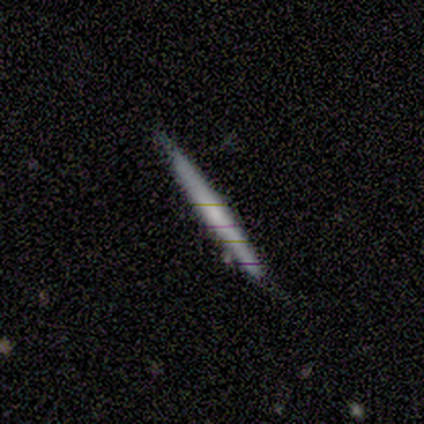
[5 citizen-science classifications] smooth 60%, featured or disk 40%, star or artifact 0%. Down the decision tree: how rounded — cigar-shaped (67%); merging — none (60%).